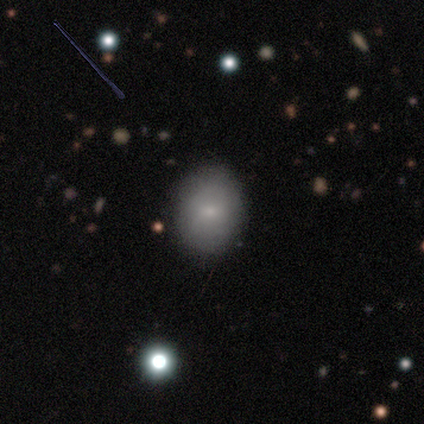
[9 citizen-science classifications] Smooth or featured? smooth (67%)
How rounded? in between (50%)
Merging? none (88%)